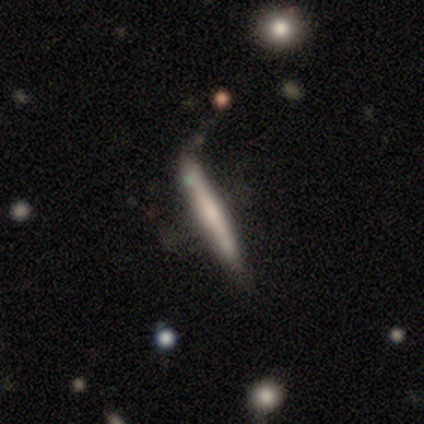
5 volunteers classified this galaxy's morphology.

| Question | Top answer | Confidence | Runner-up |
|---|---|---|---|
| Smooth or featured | smooth | 60% | featured or disk (40%) |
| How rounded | cigar-shaped | 100% | — |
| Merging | none | 60% | minor disturbance (20%) |